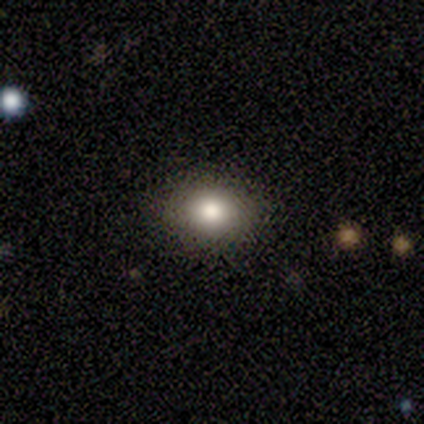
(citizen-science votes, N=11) Smooth or featured: smooth — 82% (featured or disk — 9%)
How rounded: in between — 56% (round — 44%)
Merging: none — 80% (minor disturbance — 10%)